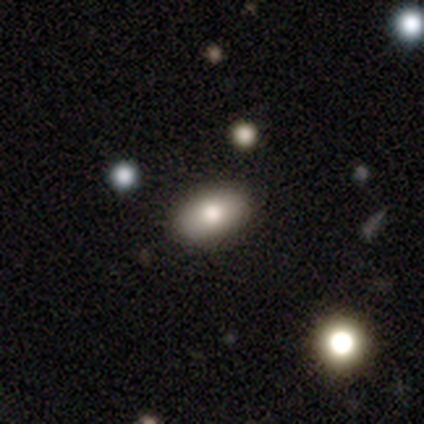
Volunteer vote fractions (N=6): A smooth galaxy with no disk features (83%) that is in between round and cigar-shaped (80%).

Vote fractions:
- Smooth or featured? smooth: 83% / featured or disk: 17% / star or artifact: 0%
- How rounded? in between: 80% / round: 20% / cigar-shaped: 0%
- Merging? none: 83% / minor disturbance: 17% / major disturbance: 0% / merger: 0%